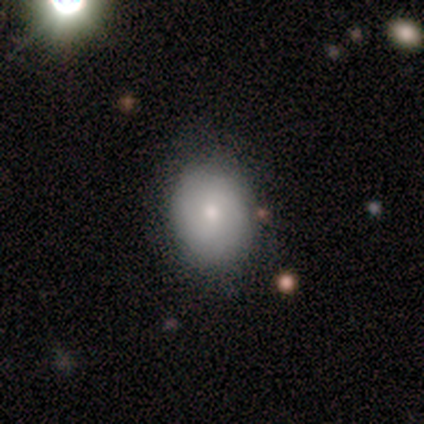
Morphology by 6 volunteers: Smooth or featured? smooth (50%, tied with featured or disk)
How rounded? in between (100%)
Merging? none (67%)